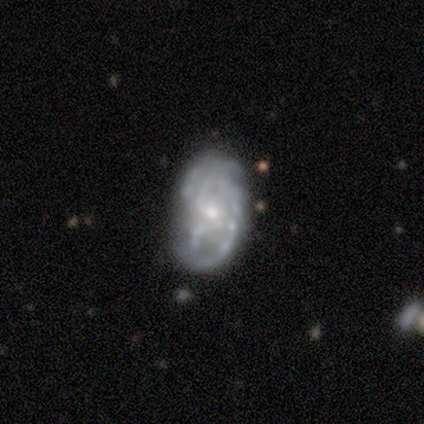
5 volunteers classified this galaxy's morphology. Smooth or featured?
  - featured or disk: 60% *
  - smooth: 20%
  - star or artifact: 20%
Edge-on disk?
  - no: 100% *
  - yes: 0%
Bar?
  - no: 67% *
  - weak: 33%
  - strong: 0%
Spiral arms?
  - yes: 100% *
  - no: 0%
Spiral winding?
  - medium: 100% *
  - tight: 0%
  - loose: 0%
Spiral arm count?
  - can't tell: 67% *
  - 2: 33%
  - 1: 0%
  - 3: 0%
  - 4: 0%
  - more than 4: 0%
Bulge size?
  - small: 100% *
  - dominant: 0%
  - large: 0%
  - moderate: 0%
  - none: 0%
Merging?
  - none: 100% *
  - minor disturbance: 0%
  - major disturbance: 0%
  - merger: 0%